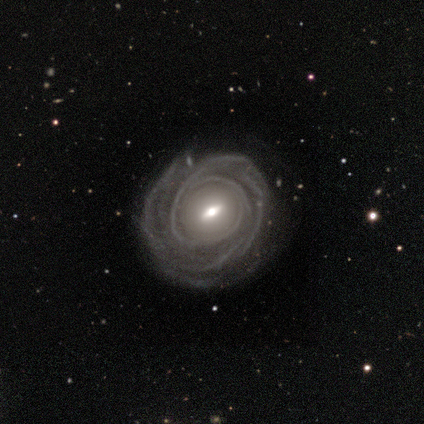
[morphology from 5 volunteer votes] type=featured or disk (100%); edge-on=no (80%); bar=weak (50%, tied with no); spiral arms=yes (75%); winding=tight (100%); arm count=1 (33%, tied with 3 and can't tell); bulge=small (100%); merging=none (100%).